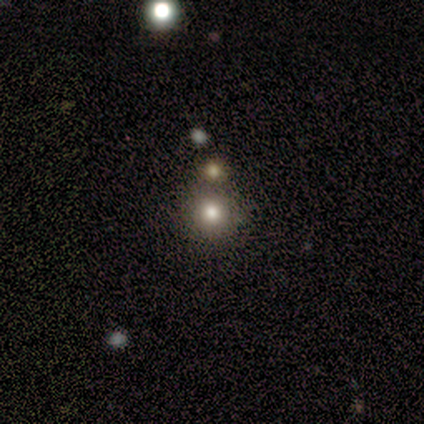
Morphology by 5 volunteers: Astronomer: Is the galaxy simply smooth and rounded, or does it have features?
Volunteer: smooth — 60% (runner-up: star or artifact, 40%).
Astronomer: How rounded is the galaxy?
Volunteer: round — 67%.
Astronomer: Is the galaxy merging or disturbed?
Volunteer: none — 33%, tied with minor disturbance and merger at 33%.